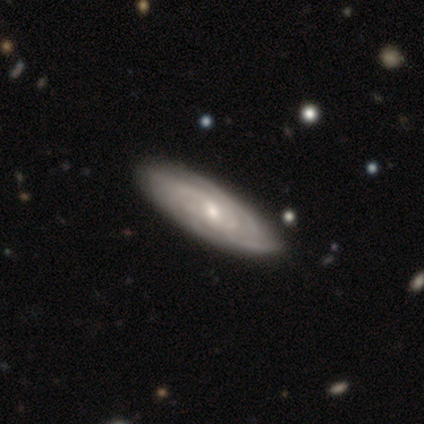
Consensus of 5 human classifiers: A featured or disk galaxy (100%) with no bar (67%), tight (67%) spiral arms (100%) and a small central bulge (67%).

Vote fractions:
- Smooth or featured? featured or disk: 100% / smooth: 0% / star or artifact: 0%
- Edge-on disk? no: 60% / yes: 40%
- Bar? no: 67% / weak: 33% / strong: 0%
- Spiral arms? yes: 100% / no: 0%
- Spiral winding? tight: 67% / medium: 33% / loose: 0%
- Spiral arm count? can't tell: 100% / 1: 0% / 2: 0% / 3: 0% / 4: 0% / more than 4: 0%
- Bulge size? small: 67% / moderate: 33% / dominant: 0% / large: 0% / none: 0%
- Merging? none: 60% / minor disturbance: 40% / major disturbance: 0% / merger: 0%